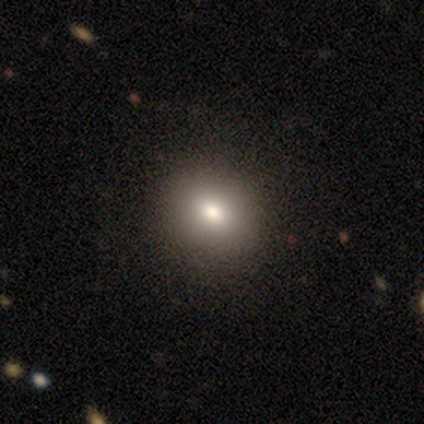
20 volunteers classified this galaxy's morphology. smooth 80%, featured or disk 15%, star or artifact 5%. Down the decision tree: how rounded — round (69%); merging — none (79%).